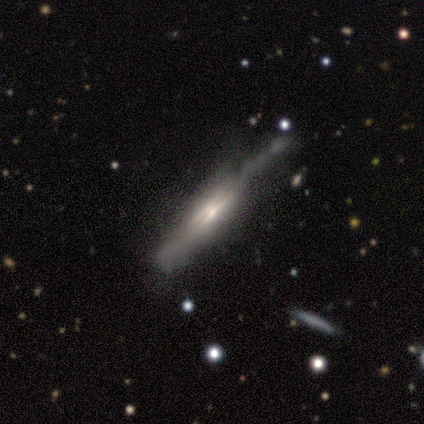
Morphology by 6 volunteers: smooth_or_featured: featured or disk (p=1.00)
disk_edge_on: yes (p=1.00)
edge_on_bulge: boxy (p=0.67) [alt: none p=0.17]
merging: major disturbance (p=0.50) [alt: none p=0.33]